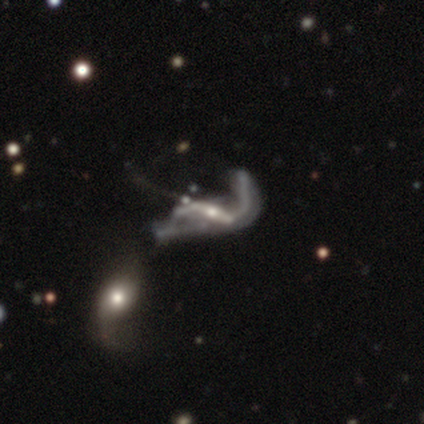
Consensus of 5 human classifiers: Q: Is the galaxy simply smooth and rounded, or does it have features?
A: featured or disk — 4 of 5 (80%).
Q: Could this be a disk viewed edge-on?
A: no — 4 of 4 (100%).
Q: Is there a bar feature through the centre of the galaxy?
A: strong — 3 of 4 (75%).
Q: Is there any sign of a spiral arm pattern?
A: yes — 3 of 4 (75%).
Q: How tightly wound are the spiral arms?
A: loose — 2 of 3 (67%).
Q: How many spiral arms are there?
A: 2 — 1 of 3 (33%, tied with 3 and can't tell).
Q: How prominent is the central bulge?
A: moderate — 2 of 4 (50%).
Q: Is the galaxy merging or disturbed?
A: merger — 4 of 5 (80%).